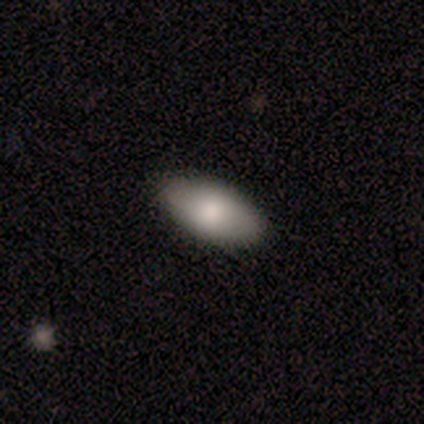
A smooth galaxy with no disk features (100%) that is in between round and cigar-shaped (80%). Merging: none (80%).